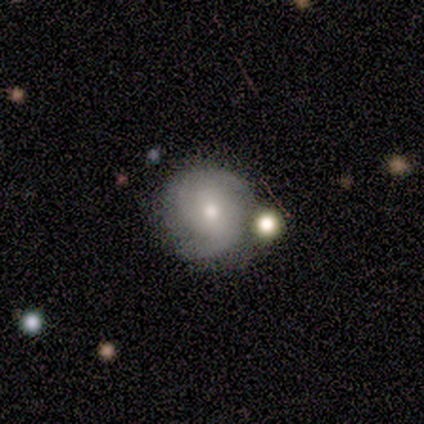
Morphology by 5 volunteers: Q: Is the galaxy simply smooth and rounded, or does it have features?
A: featured or disk — 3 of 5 (60%).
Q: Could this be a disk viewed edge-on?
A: no — 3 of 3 (100%).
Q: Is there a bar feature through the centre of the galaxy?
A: strong — 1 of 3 (33%, tied with weak and no).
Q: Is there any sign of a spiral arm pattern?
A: yes — 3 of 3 (100%).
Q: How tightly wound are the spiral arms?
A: tight — 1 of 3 (33%, tied with medium and loose).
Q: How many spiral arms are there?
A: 2 — 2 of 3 (67%).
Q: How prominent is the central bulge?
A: moderate — 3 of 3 (100%).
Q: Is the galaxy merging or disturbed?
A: none — 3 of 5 (60%).